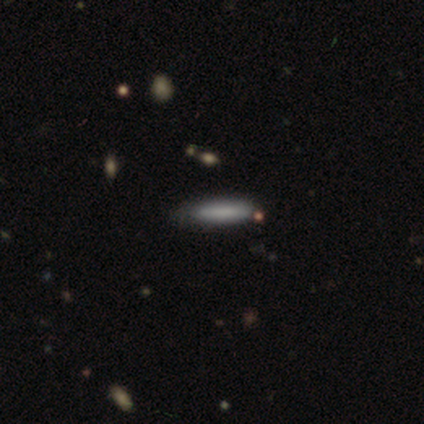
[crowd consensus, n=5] Smooth or featured: smooth — 100%
How rounded: cigar-shaped — 100%
Merging: none — 80% (minor disturbance — 20%)